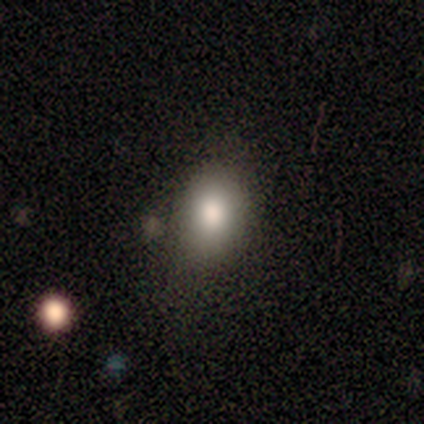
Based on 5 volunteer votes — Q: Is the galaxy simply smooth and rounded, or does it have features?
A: smooth — 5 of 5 (100%).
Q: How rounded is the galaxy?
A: in between — 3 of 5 (60%).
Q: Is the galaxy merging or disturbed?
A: none — 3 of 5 (60%).